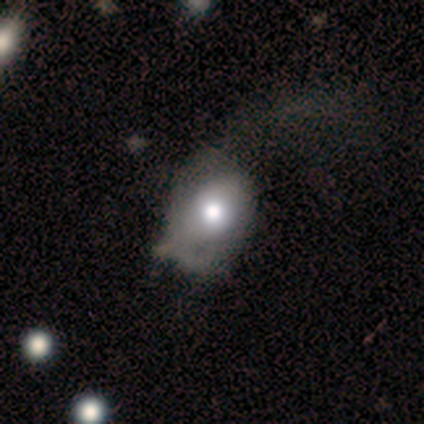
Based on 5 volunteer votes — Smooth or featured? featured or disk (80%)
Edge-on disk? no (100%)
Bar? no (75%)
Spiral arms? no (75%)
Bulge size? moderate (75%)
Merging? none (60%)